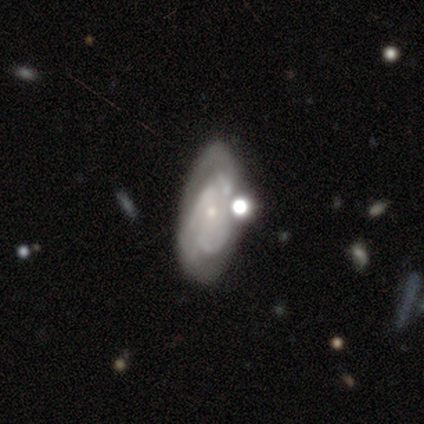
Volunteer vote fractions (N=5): This is clearly a featured or disk galaxy (100%). It is clearly not viewed edge-on (100%). Bar: clearly no (80%). Spiral arm pattern: clearly yes (100%). Spiral arm count: marginally 2 (40%, tied with can't tell). Spiral winding: likely medium (60%). Central bulge: clearly small (100%). Merging: clearly none (80%).